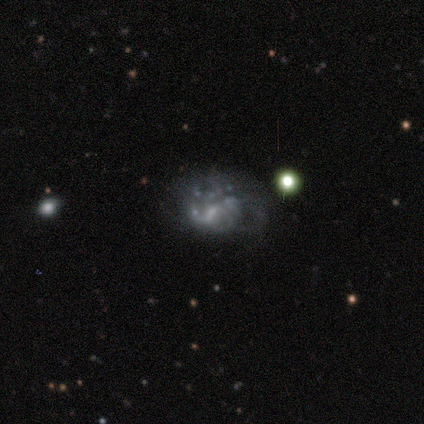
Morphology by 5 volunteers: Volunteers were most divided on "merging" (2-way tie): none: 50%, minor disturbance: 50%, major disturbance: 0%, merger: 0%. More confident: edge-on disk — no (100%); smooth or featured — featured or disk (80%); bar — no (75%); spiral arms — no (75%); bulge size — small (75%).